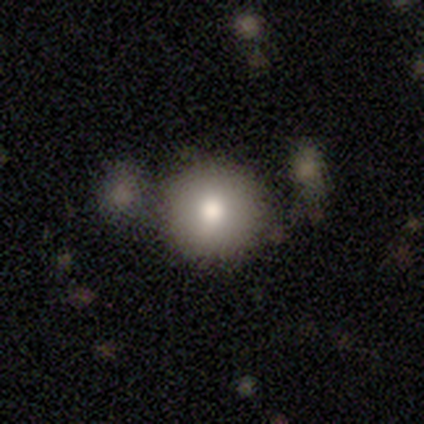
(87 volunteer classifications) Smooth or featured? smooth (83%)
How rounded? round (96%)
Merging? none (73%)